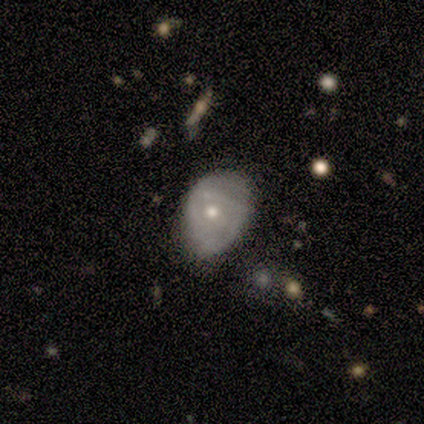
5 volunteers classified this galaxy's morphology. A featured or disk galaxy (80%) with no bar (50%), no spiral arms (75%) and a moderate central bulge (75%). Merging: minor disturbance (80%).